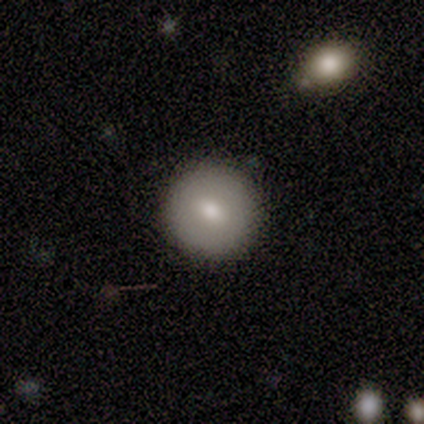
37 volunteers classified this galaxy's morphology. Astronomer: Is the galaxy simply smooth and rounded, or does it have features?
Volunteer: smooth — 76%.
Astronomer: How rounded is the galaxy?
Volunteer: round — 93%.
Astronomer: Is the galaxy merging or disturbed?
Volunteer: none — 89%.